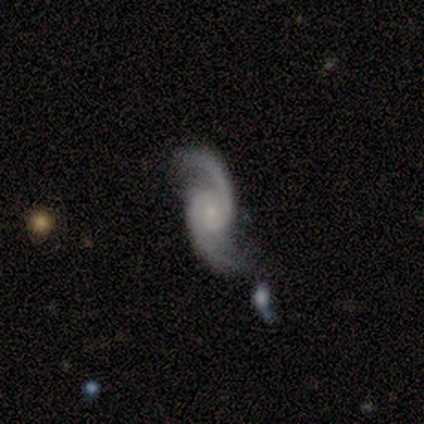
This is clearly a featured or disk galaxy (100%). It is clearly not viewed edge-on (100%). Bar: likely no (75%). Spiral arm pattern: clearly yes (100%). Spiral arm count: clearly 2 (100%). Spiral winding: possibly medium (58%). Central bulge: clearly small (83%). Merging: possibly none (50%).